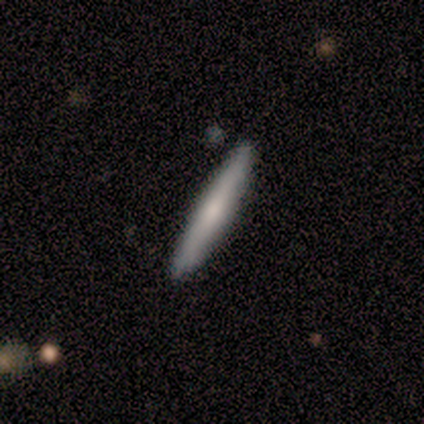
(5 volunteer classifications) Q: Smooth or featured?
A: smooth (60%); runner-up: featured or disk (40%)
Q: How rounded?
A: cigar-shaped (100%)
Q: Merging?
A: none (80%); runner-up: minor disturbance (20%)